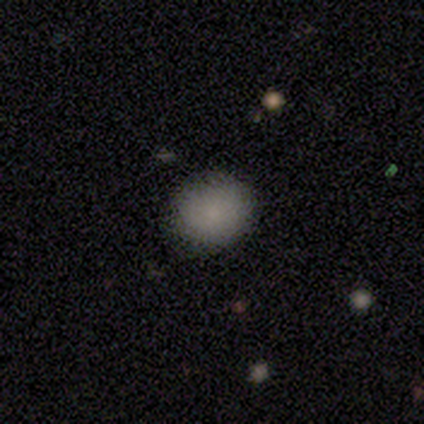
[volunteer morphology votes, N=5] Overall: smooth (80%). How rounded: round (75%). Merging: none (100%).